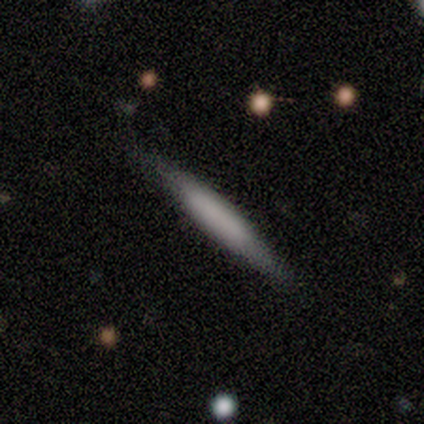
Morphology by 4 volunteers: Smooth or featured? 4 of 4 (100%) said smooth. How rounded? 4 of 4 (100%) said cigar-shaped. Merging? 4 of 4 (100%) said none.